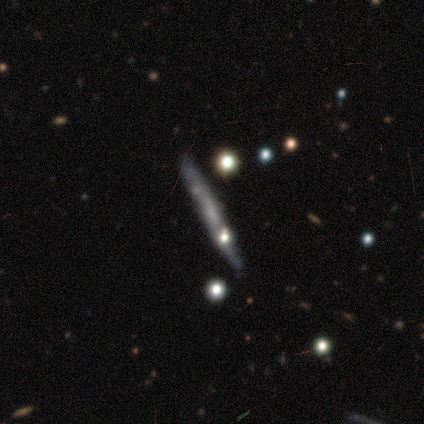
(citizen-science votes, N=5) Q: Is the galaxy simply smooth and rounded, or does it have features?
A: smooth — 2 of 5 (40%, tied with featured or disk).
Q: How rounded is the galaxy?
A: cigar-shaped — 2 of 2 (100%).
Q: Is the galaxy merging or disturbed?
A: none — 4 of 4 (100%).